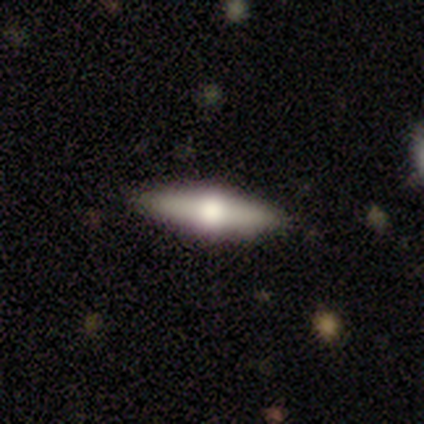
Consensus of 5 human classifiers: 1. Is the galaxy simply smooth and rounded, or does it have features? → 80% featured or disk, 20% smooth, 0% star or artifact.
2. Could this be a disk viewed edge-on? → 100% yes, 0% no.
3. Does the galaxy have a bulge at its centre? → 100% rounded, 0% boxy, 0% none.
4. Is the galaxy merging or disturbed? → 100% none, 0% minor disturbance, 0% major disturbance, 0% merger.